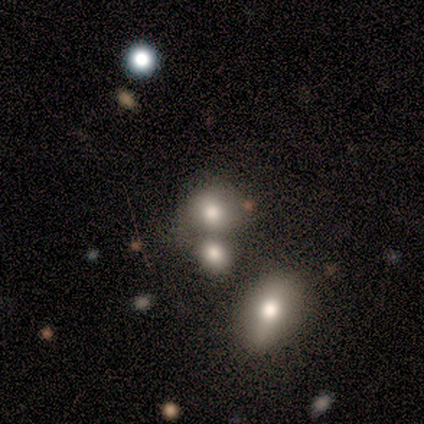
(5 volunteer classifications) Smooth or featured? 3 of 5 (60%) said smooth. How rounded? 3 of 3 (100%) said round. Merging? 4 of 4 (100%) said none.